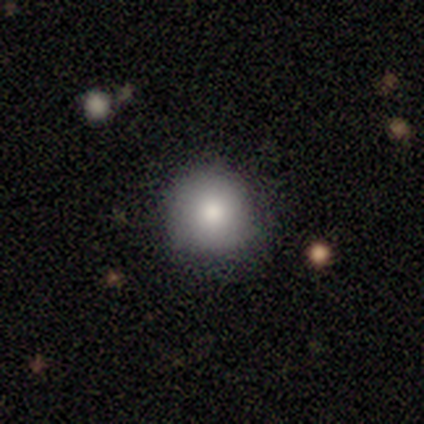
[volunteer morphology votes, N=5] Smooth or featured? smooth (80%)
How rounded? round (100%)
Merging? none (60%)